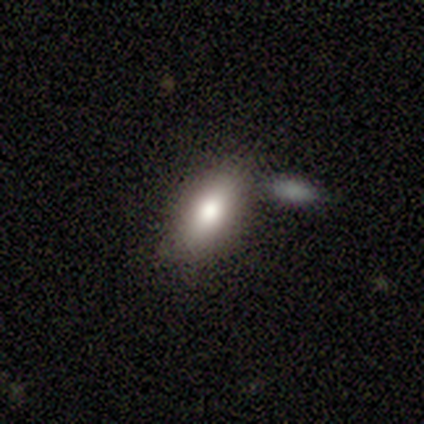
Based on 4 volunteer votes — Smooth or featured? smooth (75%)
How rounded? in between (67%)
Merging? none (100%)